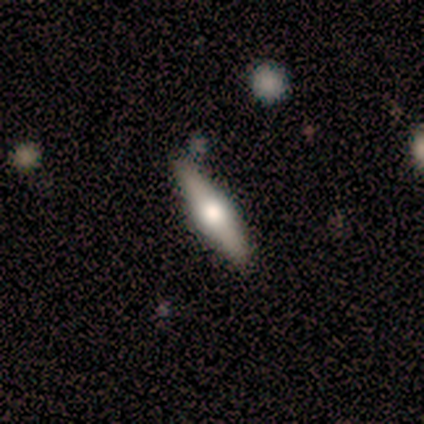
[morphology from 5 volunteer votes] Smooth or featured? 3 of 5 (60%) said smooth. How rounded? 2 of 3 (67%) said cigar-shaped. Merging? 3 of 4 (75%) said none.